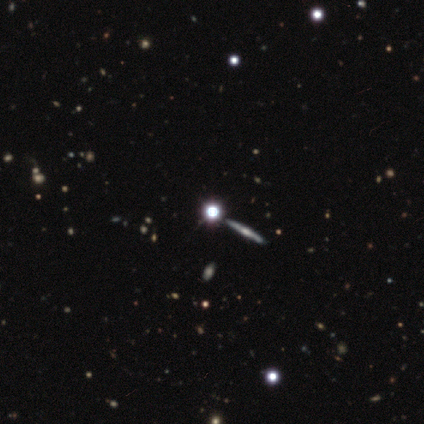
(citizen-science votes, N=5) A featured or disk galaxy (60%) viewed edge-on (100%) with a rounded central bulge (100%).

Vote fractions:
- Smooth or featured? featured or disk: 60% / star or artifact: 40% / smooth: 0%
- Edge-on disk? yes: 100% / no: 0%
- Edge-on bulge? rounded: 100% / boxy: 0% / none: 0%
- Merging? minor disturbance: 67% / none: 33% / major disturbance: 0% / merger: 0%